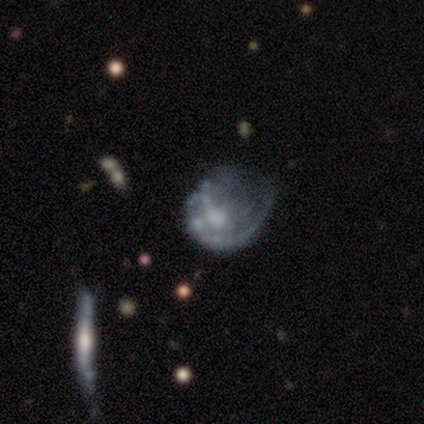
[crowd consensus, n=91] Smooth or featured?
  - featured or disk: 73% *
  - smooth: 19%
  - star or artifact: 9%
Edge-on disk?
  - no: 100% *
  - yes: 0%
Bar?
  - no: 83% *
  - weak: 17%
  - strong: 0%
Spiral arms?
  - no: 64% *
  - yes: 36%
Bulge size?
  - moderate: 36% *
  - none: 33%
  - large: 15%
  - small: 14%
  - dominant: 2%
Merging?
  - major disturbance: 54% *
  - minor disturbance: 23%
  - merger: 12%
  - none: 11%